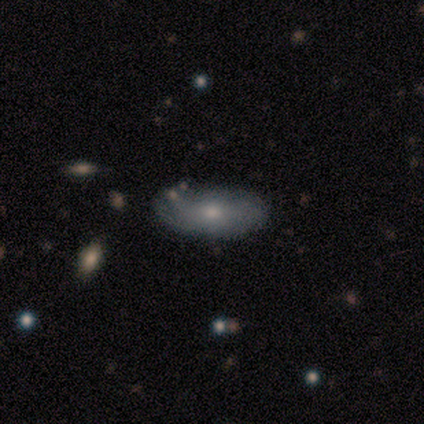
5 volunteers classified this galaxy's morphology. smooth_or_featured: featured or disk (p=0.60) [alt: smooth p=0.40]
disk_edge_on: no (p=1.00)
bar: no (p=0.67) [alt: weak p=0.33]
has_spiral_arms: yes (p=0.67) [alt: no p=0.33]
spiral_winding: medium (p=0.50) [tied with: loose p=0.50]
spiral_arm_count: can't tell (p=1.00)
bulge_size: small (p=0.67) [alt: moderate p=0.33]
merging: none (p=0.80) [alt: minor disturbance p=0.20]